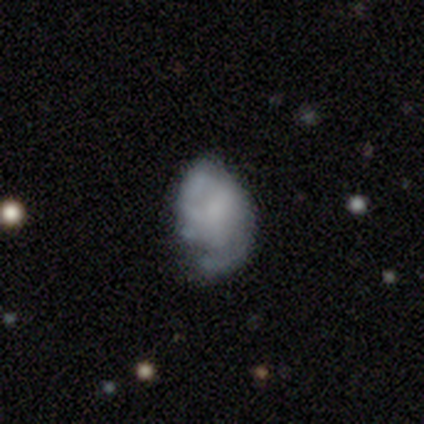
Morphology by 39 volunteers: Smooth or featured: featured or disk — 69% (smooth — 31%)
Edge-on disk: no — 96% (yes — 4%)
Bar: no — 73% (weak — 27%)
Spiral arms: yes — 73% (no — 27%)
Spiral winding: medium — 47% (tight — 32%)
Spiral arm count: 2 — 42% (can't tell — 37%)
Bulge size: none — 54% (small — 31%)
Merging: none — 49% (minor disturbance — 31%)